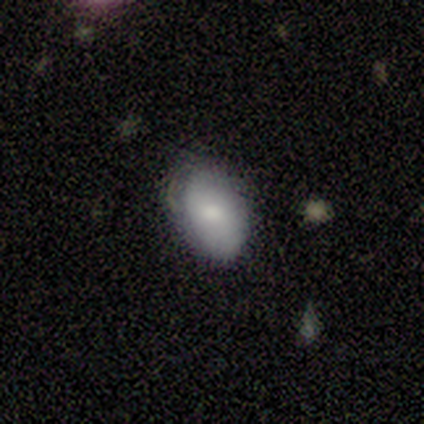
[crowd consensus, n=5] Overall: smooth (80%). How rounded: in between (75%). Merging: none (80%).